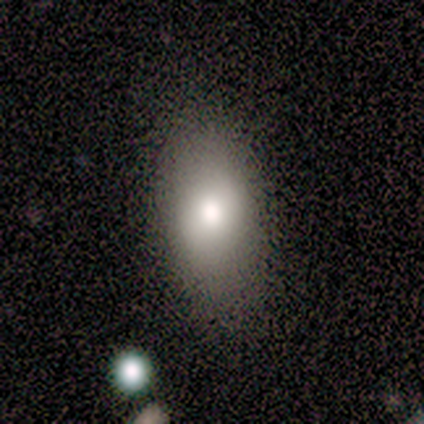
A smooth galaxy with no disk features (100%) that is in between round and cigar-shaped (80%). Merging: none (60%).